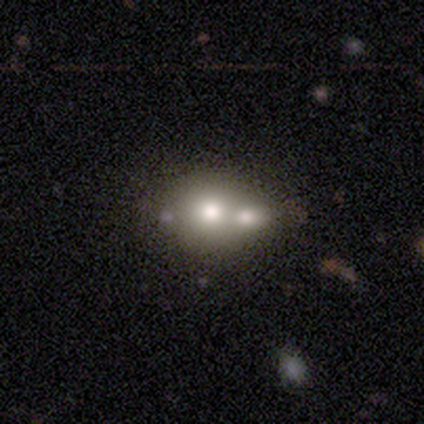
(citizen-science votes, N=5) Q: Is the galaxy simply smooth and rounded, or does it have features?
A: smooth — 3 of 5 (60%).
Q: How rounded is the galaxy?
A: in between — 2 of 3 (67%).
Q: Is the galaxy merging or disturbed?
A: merger — 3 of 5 (60%).